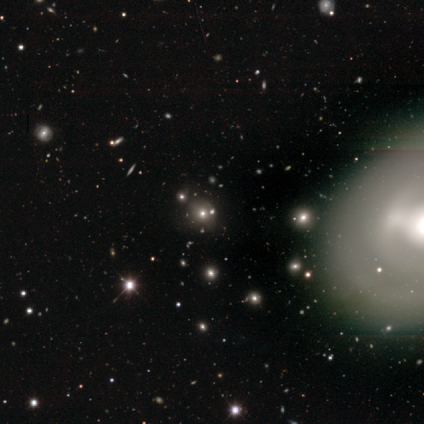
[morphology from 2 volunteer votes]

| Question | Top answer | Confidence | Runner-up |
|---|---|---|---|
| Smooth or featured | smooth | 50% | tied: star or artifact (50%) |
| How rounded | round | 100% | — |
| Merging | none | 100% | — |